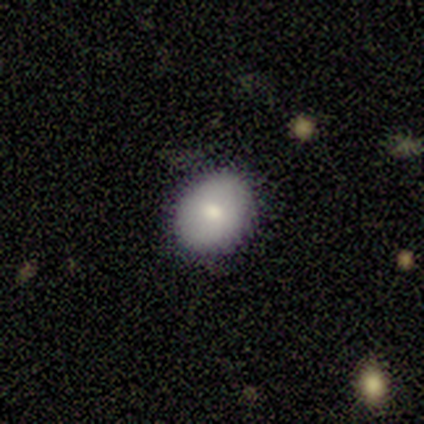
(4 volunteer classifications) A star or artifact, not a galaxy (50%).

Vote fractions:
- Smooth or featured? star or artifact: 50% / smooth: 25% / featured or disk: 25%